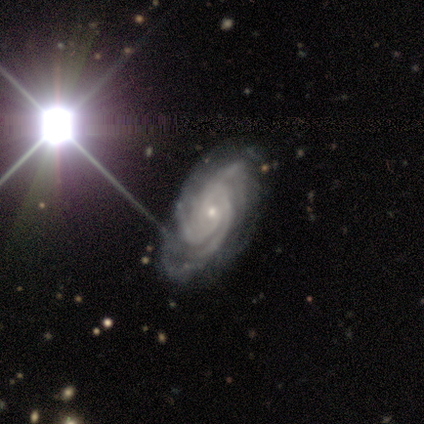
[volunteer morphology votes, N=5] Smooth or featured? featured or disk (100%)
Edge-on disk? no (100%)
Bar? no (80%)
Spiral arms? yes (100%)
Spiral winding? tight (100%)
Spiral arm count? 3 (80%)
Bulge size? small (100%)
Merging? none (100%)